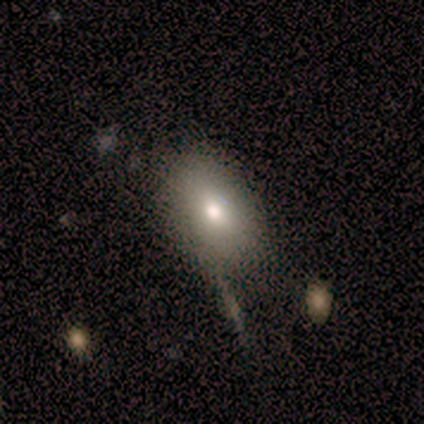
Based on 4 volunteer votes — Smooth or featured: smooth — 50% (tied with featured or disk — 50%)
How rounded: in between — 100%
Merging: none — 100%